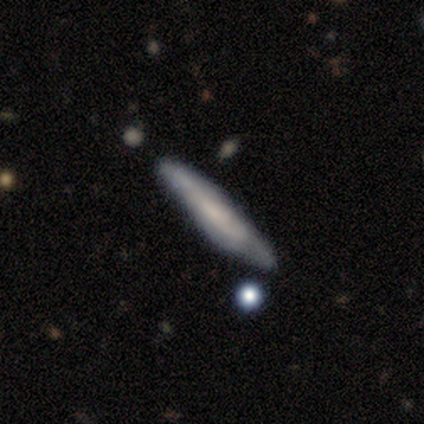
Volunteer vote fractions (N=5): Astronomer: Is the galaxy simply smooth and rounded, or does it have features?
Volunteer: smooth — 80%.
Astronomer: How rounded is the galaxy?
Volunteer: cigar-shaped — 75%.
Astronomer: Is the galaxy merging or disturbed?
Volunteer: minor disturbance — 60% (runner-up: none, 40%).